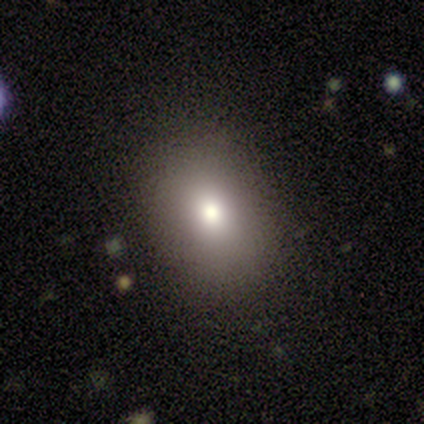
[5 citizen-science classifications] smooth-or-featured: smooth: 80% | star or artifact: 20% | featured or disk: 0%
  how-rounded: round: 50% (tied) | in between: 50% (tied) | cigar-shaped: 0%
  merging: none: 50% | minor disturbance: 25% | major disturbance: 25% | merger: 0%